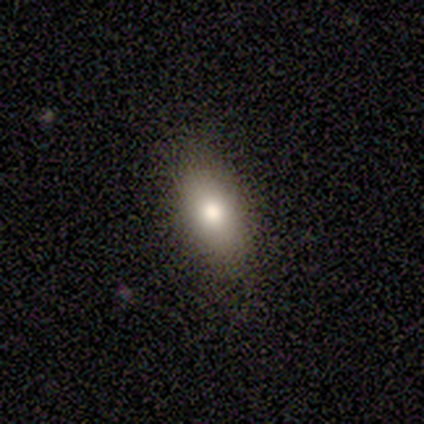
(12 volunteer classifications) Volunteers were most divided on "merging": none: 67%, minor disturbance: 25%, major disturbance: 8%, merger: 0%. More confident: smooth or featured — smooth (83%); how rounded — in between (80%).